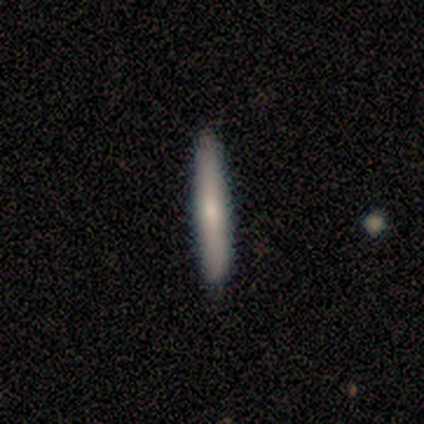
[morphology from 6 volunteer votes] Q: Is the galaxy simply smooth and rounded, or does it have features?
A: smooth — 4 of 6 (67%).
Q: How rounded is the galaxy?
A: cigar-shaped — 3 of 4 (75%).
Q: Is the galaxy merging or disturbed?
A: none — 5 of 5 (100%).